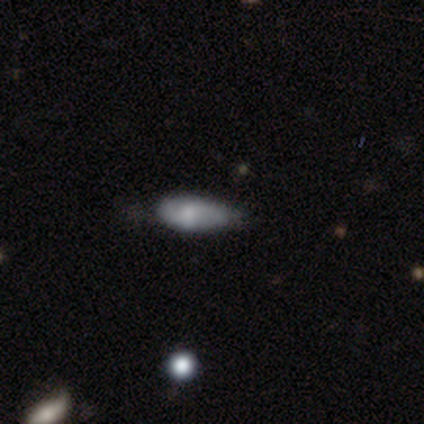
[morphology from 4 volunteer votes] This appears to be a smooth galaxy with no disk features (50%, tied with featured or disk) that is in between round and cigar-shaped (100%). Merging: none (50%).